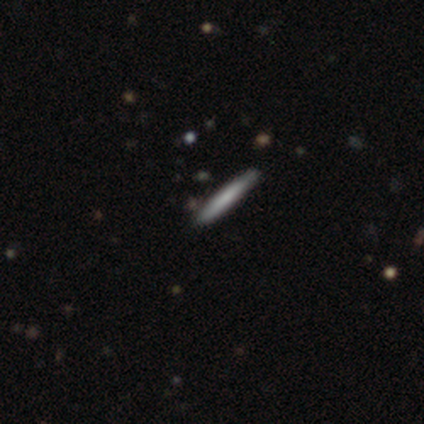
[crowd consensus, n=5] smooth-or-featured: smooth: 60% | featured or disk: 40% | star or artifact: 0%
  how-rounded: cigar-shaped: 100% | round: 0% | in between: 0%
  merging: none: 100% | minor disturbance: 0% | major disturbance: 0% | merger: 0%